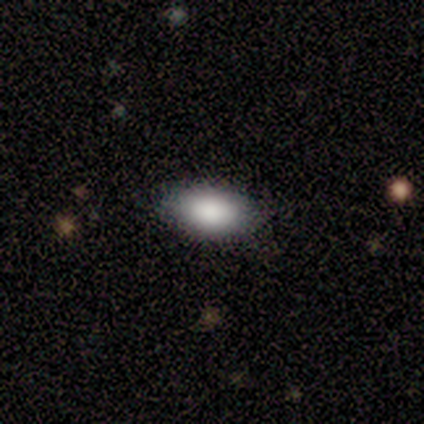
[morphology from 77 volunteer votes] Smooth or featured? 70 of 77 (91%) said smooth. How rounded? 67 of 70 (96%) said in between. Merging? 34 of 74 (46%) said none.